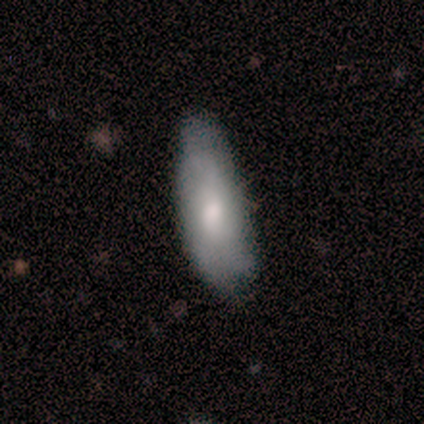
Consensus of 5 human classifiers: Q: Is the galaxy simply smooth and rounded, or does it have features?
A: smooth — 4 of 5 (80%).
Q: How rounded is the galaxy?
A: in between — 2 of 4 (50%, tied with cigar-shaped).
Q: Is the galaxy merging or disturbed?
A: none — 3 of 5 (60%).